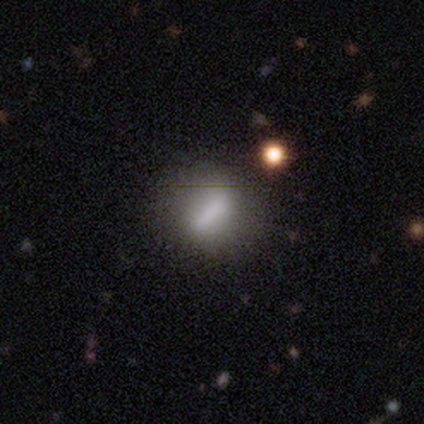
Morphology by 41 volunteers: smooth_or_featured: smooth (p=0.66) [alt: featured or disk p=0.32]
how_rounded: in between (p=0.41) [alt: round p=0.37]
merging: none (p=0.80) [alt: minor disturbance p=0.12]